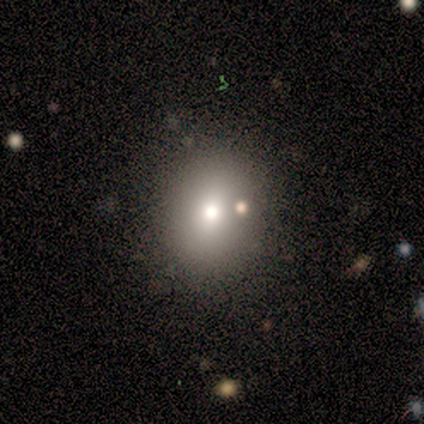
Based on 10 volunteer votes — Overall: smooth (70%). How rounded: round (71%). Merging: none (89%).